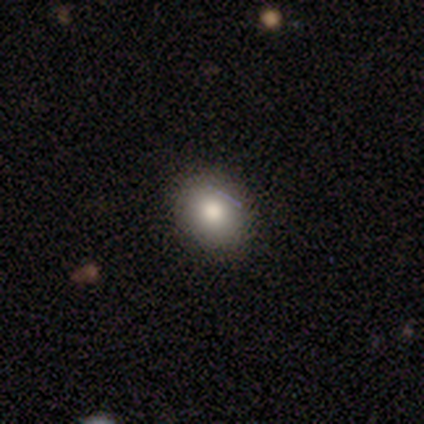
Smooth or featured?
  - smooth: 69% *
  - featured or disk: 15%
  - star or artifact: 15%
How rounded?
  - round: 70% *
  - in between: 30%
  - cigar-shaped: 0%
Merging?
  - none: 88% *
  - minor disturbance: 12%
  - major disturbance: 0%
  - merger: 0%